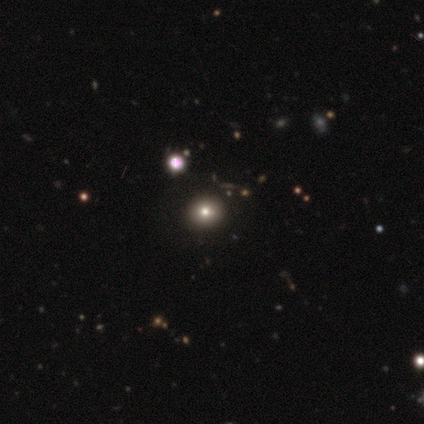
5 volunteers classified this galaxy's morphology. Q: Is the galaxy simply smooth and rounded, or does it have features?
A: smooth — 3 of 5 (60%).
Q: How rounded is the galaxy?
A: round — 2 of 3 (67%).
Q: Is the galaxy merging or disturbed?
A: none — 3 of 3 (100%).